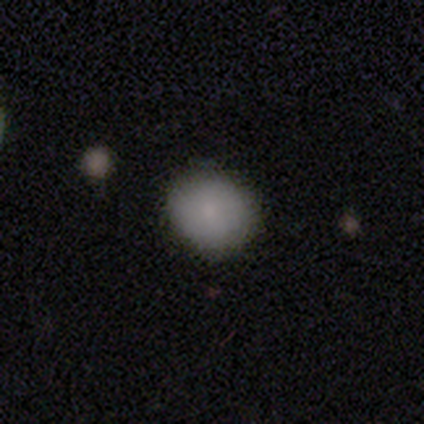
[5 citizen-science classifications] smooth 80%, star or artifact 20%, featured or disk 0%. Down the decision tree: how rounded — round (75%); merging — none (75%).